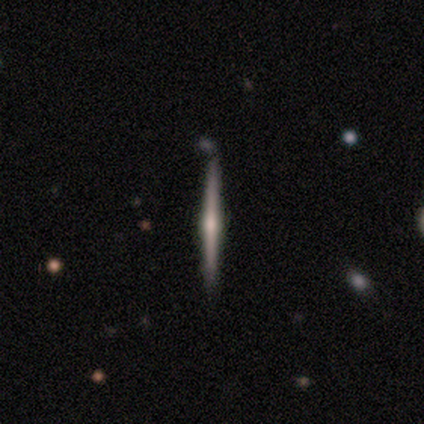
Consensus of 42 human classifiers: smooth_or_featured: featured or disk (p=0.86) [alt: smooth p=0.07]
disk_edge_on: yes (p=1.00)
edge_on_bulge: rounded (p=0.72) [alt: boxy p=0.17]
merging: none (p=0.82) [alt: minor disturbance p=0.10]